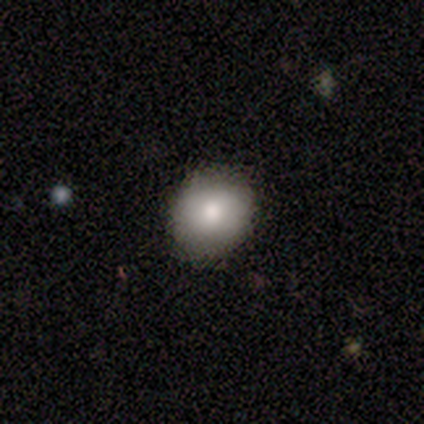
A smooth galaxy with no disk features (69%) that is round (78%). Merging: none (91%).